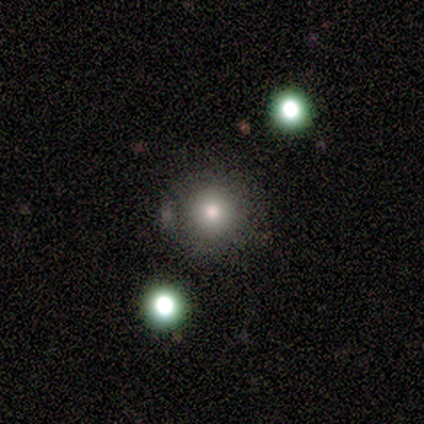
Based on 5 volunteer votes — smooth_or_featured: smooth (p=0.80) [alt: star or artifact p=0.20]
how_rounded: round (p=1.00)
merging: none (p=1.00)